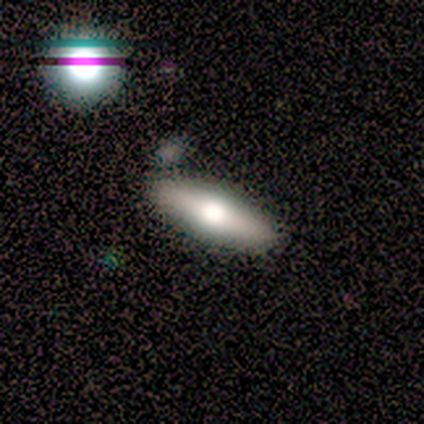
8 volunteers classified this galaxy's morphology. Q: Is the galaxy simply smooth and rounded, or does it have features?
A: smooth — 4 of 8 (50%, tied with featured or disk).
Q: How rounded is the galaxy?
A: cigar-shaped — 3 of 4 (75%).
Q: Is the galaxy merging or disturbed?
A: none — 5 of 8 (62%).